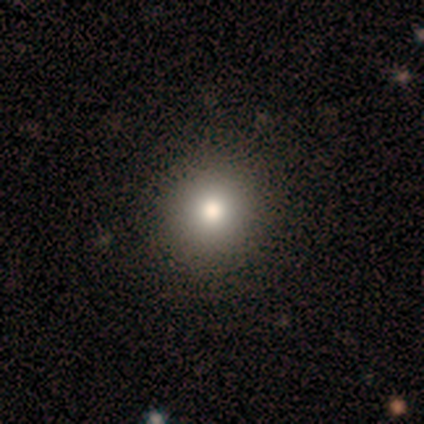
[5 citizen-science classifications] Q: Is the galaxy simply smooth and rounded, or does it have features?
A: smooth — 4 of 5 (80%).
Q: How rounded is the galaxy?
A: round — 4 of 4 (100%).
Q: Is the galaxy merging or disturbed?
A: none — 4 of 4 (100%).